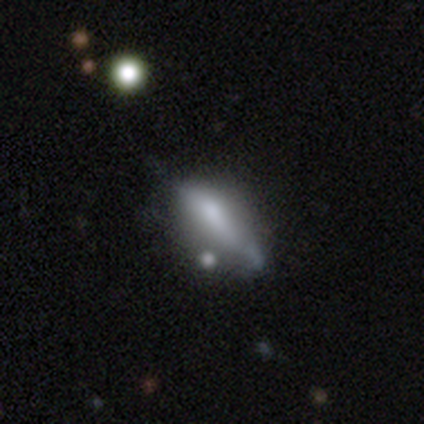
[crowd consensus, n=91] Morphology: type=smooth (57%); roundness=cigar-shaped (52%); merging=none (49%).